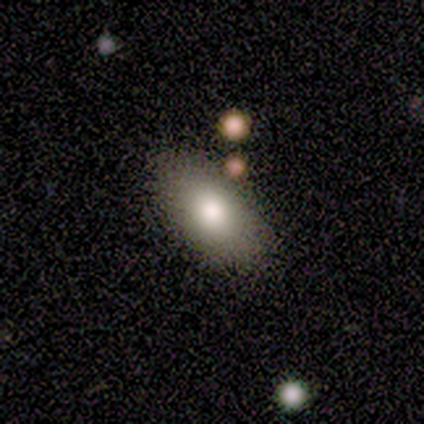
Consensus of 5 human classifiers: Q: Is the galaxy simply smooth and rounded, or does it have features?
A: smooth — 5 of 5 (100%).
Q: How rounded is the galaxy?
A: in between — 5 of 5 (100%).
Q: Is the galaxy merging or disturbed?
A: none — 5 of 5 (100%).